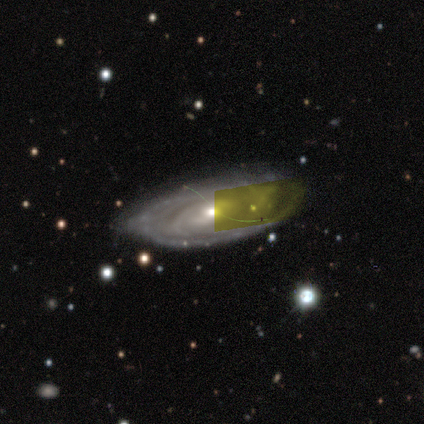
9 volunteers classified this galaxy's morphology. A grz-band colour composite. It shows a featured or disk galaxy (100%) with no bar (67%), 2 (57%) tight (86%) spiral arms (78%) and a small central bulge (67%). Merging: none (78%).